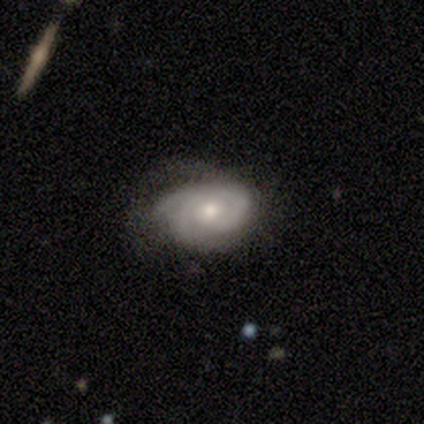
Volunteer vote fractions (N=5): A featured or disk galaxy (80%) with no bar (100%), tight (67%) spiral arms (75%) and a small central bulge (100%). Merging: none (100%).